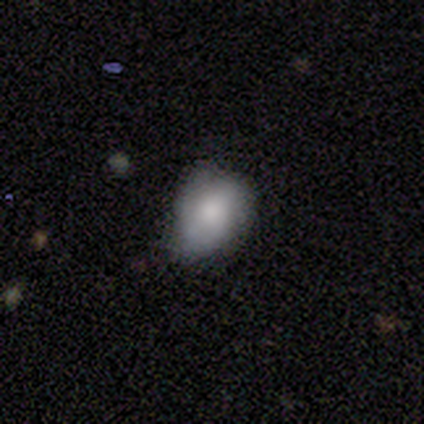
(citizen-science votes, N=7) smooth 86%, featured or disk 14%, star or artifact 0%. Down the decision tree: how rounded — in between (67%); merging — none (71%).